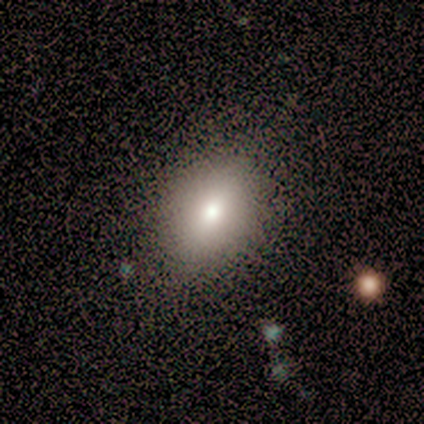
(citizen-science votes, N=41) A smooth galaxy with no disk features (76%) that is in between round and cigar-shaped (84%). Merging: none (59%).